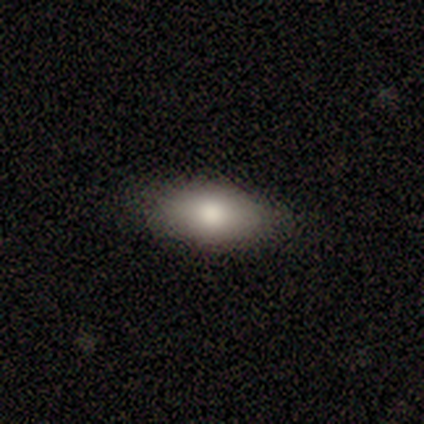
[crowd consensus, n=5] Morphology: type=smooth (100%); roundness=in between (100%); merging=none (100%).